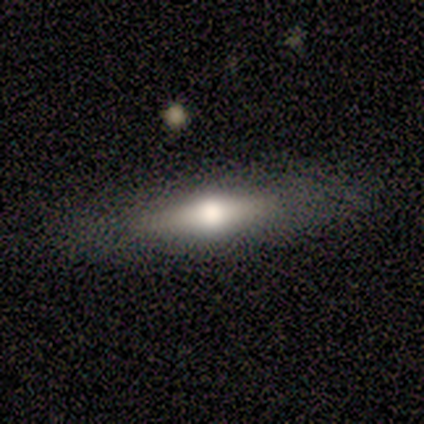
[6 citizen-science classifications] Volunteers were most divided on "smooth or featured" (2-way tie): smooth: 50%, featured or disk: 50%, star or artifact: 0%. More confident: how rounded — cigar-shaped (100%); merging — none (67%).